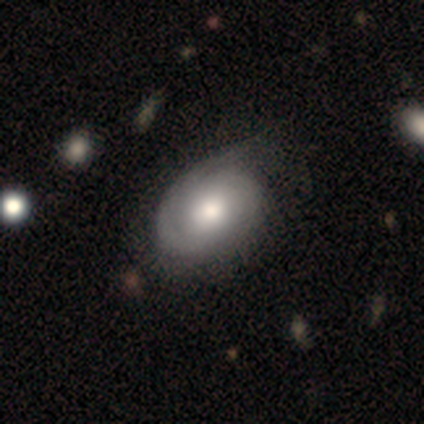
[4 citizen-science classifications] Smooth or featured?
  - featured or disk: 75% *
  - smooth: 25%
  - star or artifact: 0%
Edge-on disk?
  - no: 100% *
  - yes: 0%
Bar?
  - no: 67% *
  - weak: 33%
  - strong: 0%
Spiral arms?
  - yes: 100% *
  - no: 0%
Spiral winding?
  - medium: 67% *
  - tight: 33%
  - loose: 0%
Spiral arm count?
  - 1: 67% *
  - can't tell: 33%
  - 2: 0%
  - 3: 0%
  - 4: 0%
  - more than 4: 0%
Bulge size?
  - large: 33% * (tied)
  - moderate: 33% * (tied)
  - none: 33% * (tied)
  - dominant: 0%
  - small: 0%
Merging?
  - none: 50% *
  - minor disturbance: 25%
  - major disturbance: 25%
  - merger: 0%